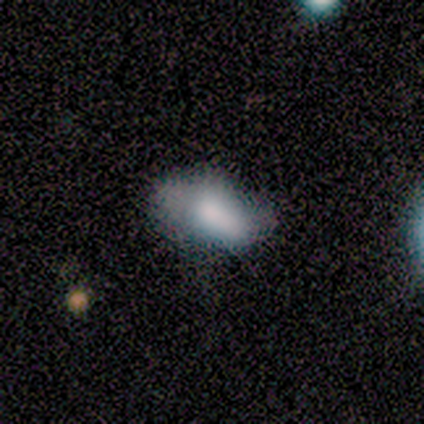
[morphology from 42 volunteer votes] Smooth or featured? 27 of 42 (64%) said smooth. How rounded? 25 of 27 (93%) said in between. Merging? 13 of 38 (34%) said none.